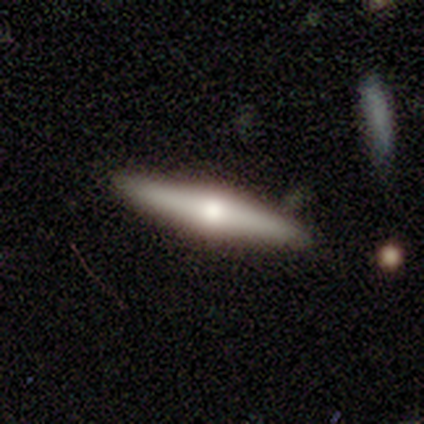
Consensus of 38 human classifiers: Overall: featured or disk (87%). Edge-on disk: yes (94%). Edge-on bulge: rounded (90%). Merging: none (95%).